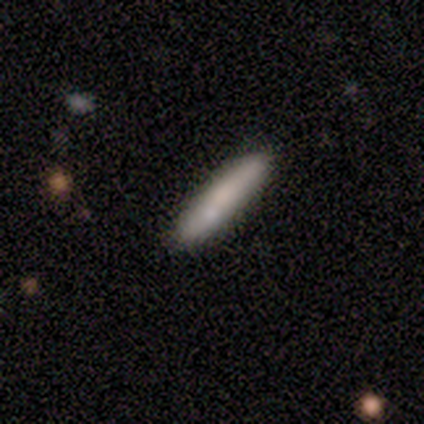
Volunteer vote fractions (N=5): This appears to be a smooth galaxy with no disk features (80%) that is cigar-shaped (100%). Merging: none (60%).